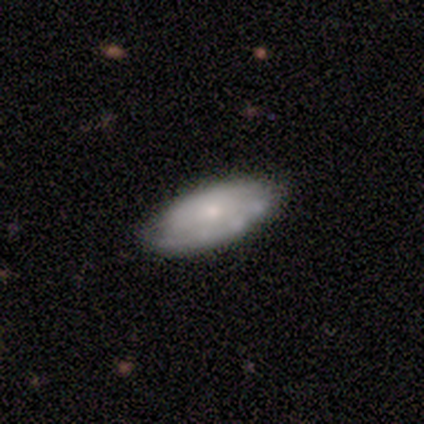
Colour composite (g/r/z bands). It shows a featured or disk galaxy (60%) with no bar (100%), no spiral arms (67%) and a small central bulge (67%). Merging: none (80%).